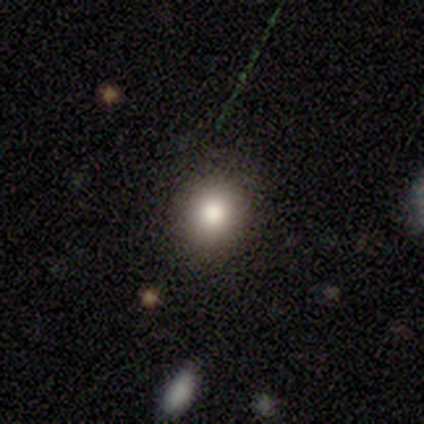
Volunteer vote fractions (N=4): This is possibly a smooth galaxy (50%). How rounded: possibly round (50%, tied with in between). Merging: likely none (67%).